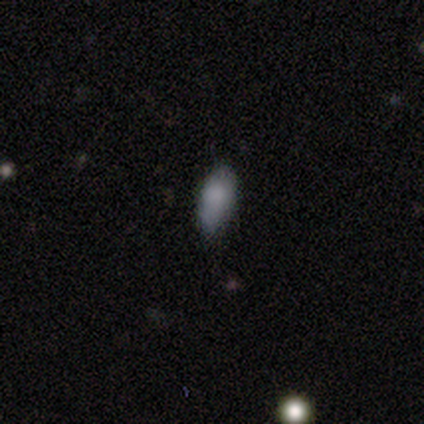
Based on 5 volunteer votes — Volunteers were most divided on "merging" (2-way tie): none: 50%, minor disturbance: 50%, major disturbance: 0%, merger: 0%. More confident: smooth or featured — smooth (80%); how rounded — in between (75%).